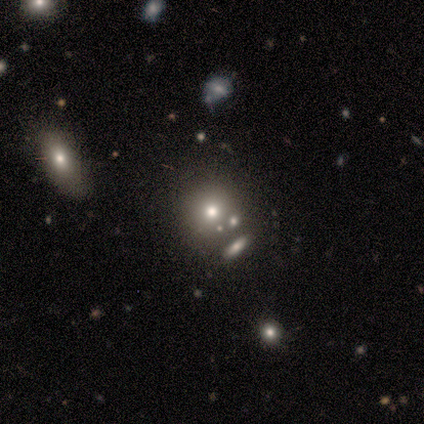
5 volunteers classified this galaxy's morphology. Volunteers were most divided on "how rounded": round: 60%, in between: 40%, cigar-shaped: 0%. More confident: smooth or featured — smooth (100%); merging — none (100%).